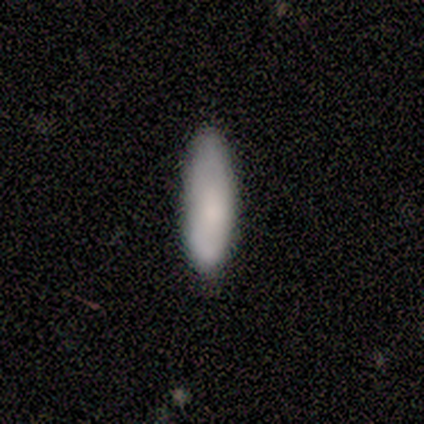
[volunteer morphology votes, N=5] A smooth galaxy with no disk features (100%) that is cigar-shaped (60%). Merging: none (100%).